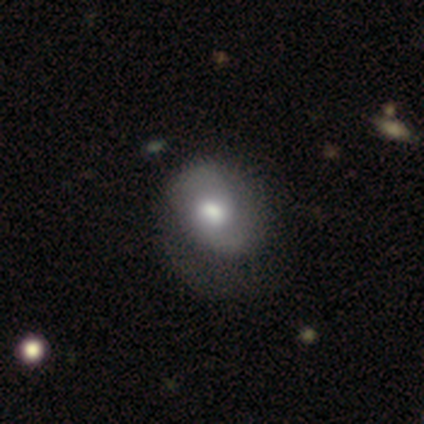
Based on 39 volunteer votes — Volunteers were most divided on "merging": major disturbance: 29%, none: 26%, minor disturbance: 23%, merger: 0%. More confident: how rounded — in between (65%); smooth or featured — smooth (51%).